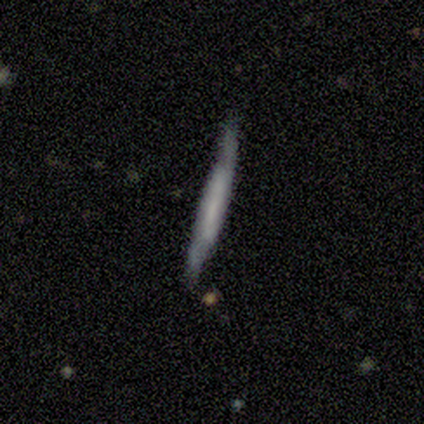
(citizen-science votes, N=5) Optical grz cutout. It shows a featured or disk galaxy (60%) viewed edge-on (67%) with a boxy central bulge (50%, tied with none). Merging: none (60%).